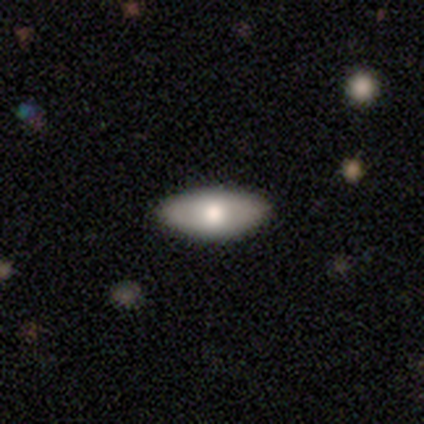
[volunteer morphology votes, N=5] Smooth or featured?
  - featured or disk: 60% *
  - smooth: 40%
  - star or artifact: 0%
Edge-on disk?
  - no: 67% *
  - yes: 33%
Bar?
  - no: 100% *
  - strong: 0%
  - weak: 0%
Spiral arms?
  - yes: 50% * (tied)
  - no: 50% * (tied)
Spiral winding?
  - medium: 100% *
  - tight: 0%
  - loose: 0%
Spiral arm count?
  - can't tell: 100% *
  - 1: 0%
  - 2: 0%
  - 3: 0%
  - 4: 0%
  - more than 4: 0%
Bulge size?
  - large: 50% * (tied)
  - moderate: 50% * (tied)
  - dominant: 0%
  - small: 0%
  - none: 0%
Merging?
  - none: 80% *
  - minor disturbance: 20%
  - major disturbance: 0%
  - merger: 0%